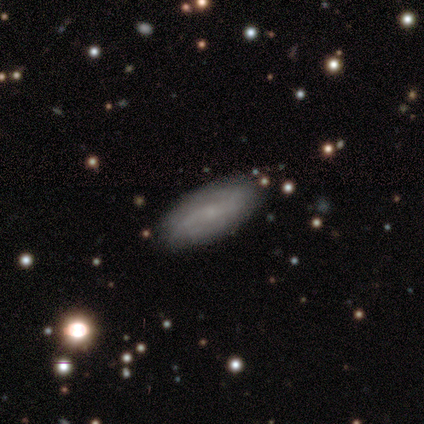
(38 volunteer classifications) Smooth or featured? featured or disk (68%)
Edge-on disk? no (88%)
Bar? weak (52%)
Spiral arms? yes (96%)
Spiral winding? loose (45%)
Spiral arm count? 2 (77%)
Bulge size? small (70%)
Merging? none (53%)